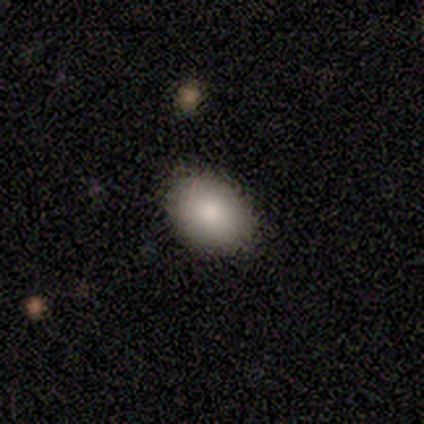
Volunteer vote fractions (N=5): smooth-or-featured: smooth: 80% | star or artifact: 20% | featured or disk: 0%
  how-rounded: in between: 100% | round: 0% | cigar-shaped: 0%
  merging: none: 100% | minor disturbance: 0% | major disturbance: 0% | merger: 0%